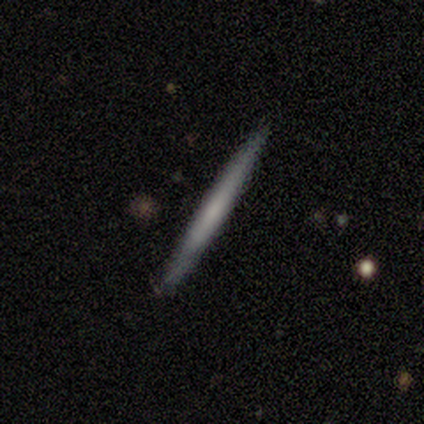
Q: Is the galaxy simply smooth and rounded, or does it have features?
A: smooth — 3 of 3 (100%).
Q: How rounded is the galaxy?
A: cigar-shaped — 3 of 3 (100%).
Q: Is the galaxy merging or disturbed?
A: none — 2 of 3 (67%).